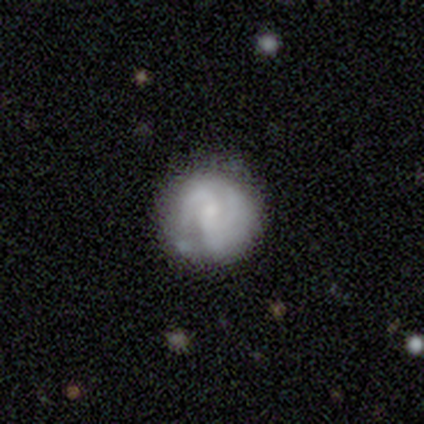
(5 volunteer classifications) smooth_or_featured: featured or disk (p=0.80) [alt: smooth p=0.20]
disk_edge_on: no (p=1.00)
bar: weak (p=0.50) [alt: strong p=0.25]
has_spiral_arms: yes (p=0.75) [alt: no p=0.25]
spiral_winding: medium (p=0.67) [alt: tight p=0.33]
spiral_arm_count: 2 (p=1.00)
bulge_size: moderate (p=1.00)
merging: none (p=0.60) [alt: minor disturbance p=0.20]